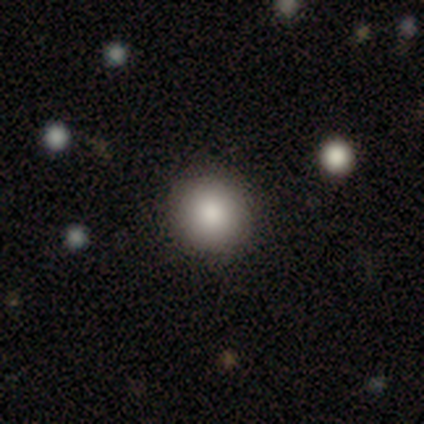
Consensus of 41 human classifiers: smooth_or_featured: smooth (p=0.80) [alt: featured or disk p=0.15]
how_rounded: round (p=0.97) [alt: in between p=0.03]
merging: none (p=0.92) [alt: minor disturbance p=0.08]